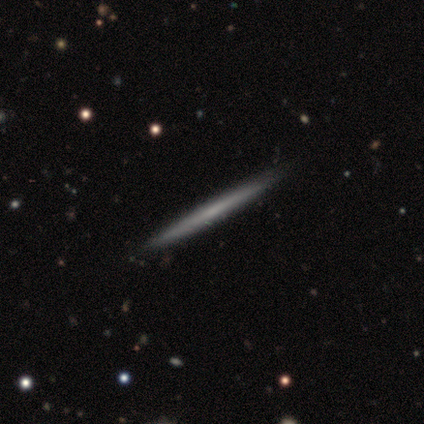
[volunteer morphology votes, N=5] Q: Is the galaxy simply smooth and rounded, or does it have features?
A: featured or disk — 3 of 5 (60%).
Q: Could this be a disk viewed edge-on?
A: yes — 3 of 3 (100%).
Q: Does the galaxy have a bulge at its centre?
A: none — 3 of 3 (100%).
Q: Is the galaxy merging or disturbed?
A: none — 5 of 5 (100%).